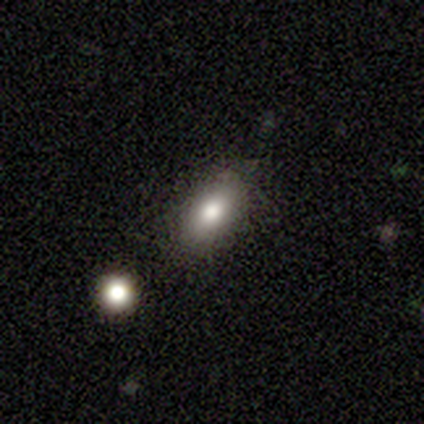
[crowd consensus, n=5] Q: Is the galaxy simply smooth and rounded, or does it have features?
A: smooth — 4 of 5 (80%).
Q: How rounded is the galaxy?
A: in between — 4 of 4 (100%).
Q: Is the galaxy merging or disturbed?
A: none — 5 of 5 (100%).